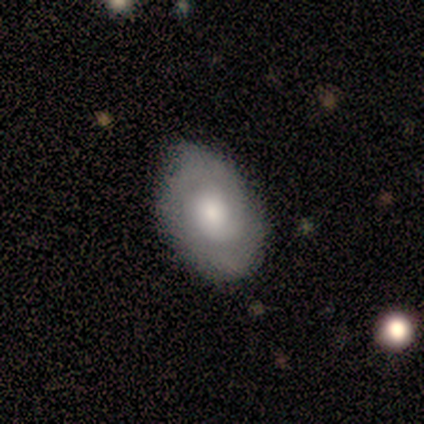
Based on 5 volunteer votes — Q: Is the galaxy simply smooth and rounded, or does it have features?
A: smooth — 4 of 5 (80%).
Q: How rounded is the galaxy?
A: in between — 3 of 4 (75%).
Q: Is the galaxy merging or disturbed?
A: none — 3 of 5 (60%).